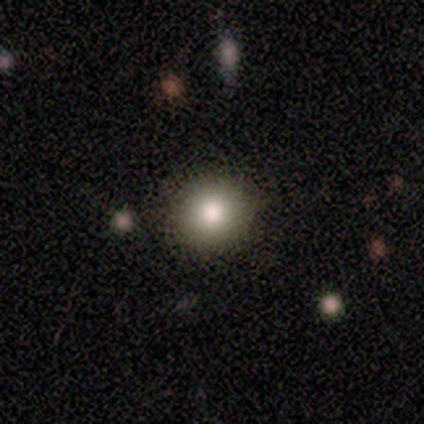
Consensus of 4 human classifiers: A smooth galaxy with no disk features (100%) that is round (75%). Merging: none (75%).